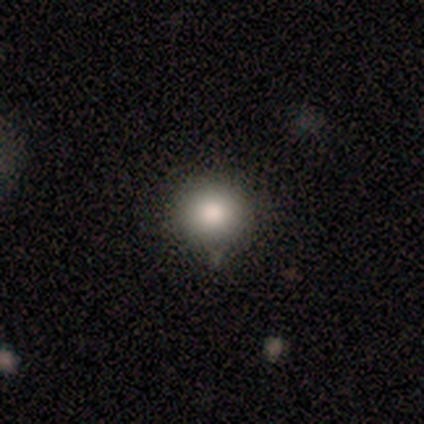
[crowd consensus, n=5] Smooth or featured: smooth — 80% (featured or disk — 20%)
How rounded: round — 100%
Merging: none — 80% (minor disturbance — 20%)